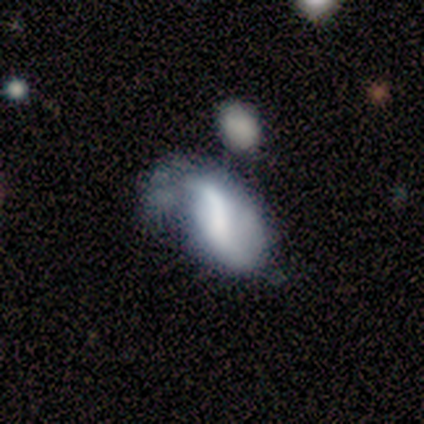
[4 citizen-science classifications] Smooth or featured: featured or disk — 75% (smooth — 25%)
Edge-on disk: no — 100%
Bar: no — 67% (strong — 33%)
Spiral arms: yes — 67% (no — 33%)
Spiral winding: loose — 100%
Spiral arm count: 2 — 100%
Bulge size: large — 33% (tied with small — 33%; none — 33%)
Merging: minor disturbance — 50% (major disturbance — 25%)